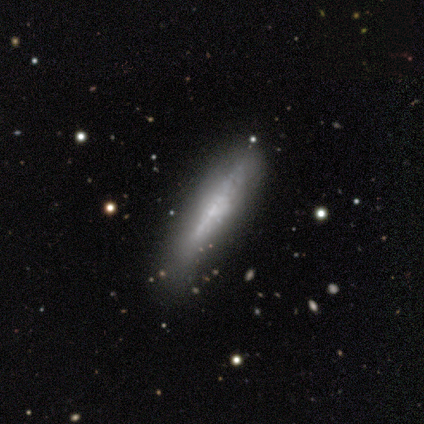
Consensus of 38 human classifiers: Morphology: type=featured or disk (76%); edge-on=yes (76%); edge-on bulge=none (50%); merging=none (65%).